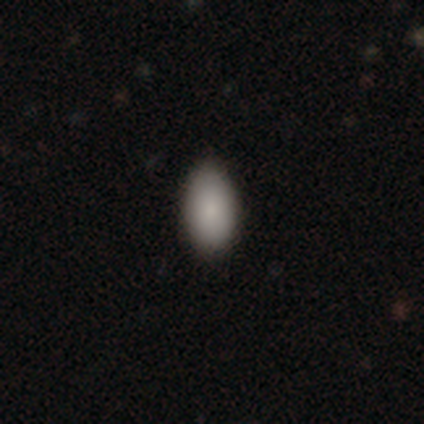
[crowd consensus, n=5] Morphology: type=smooth (80%); roundness=in between (100%); merging=none (100%).